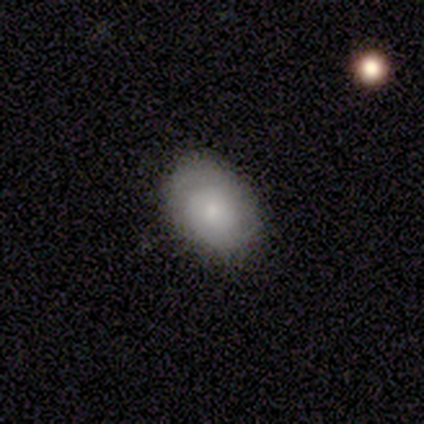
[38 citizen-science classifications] Q: Smooth or featured?
A: smooth (61%); runner-up: featured or disk (34%)
Q: How rounded?
A: in between (78%); runner-up: round (22%)
Q: Merging?
A: none (81%); runner-up: minor disturbance (19%)